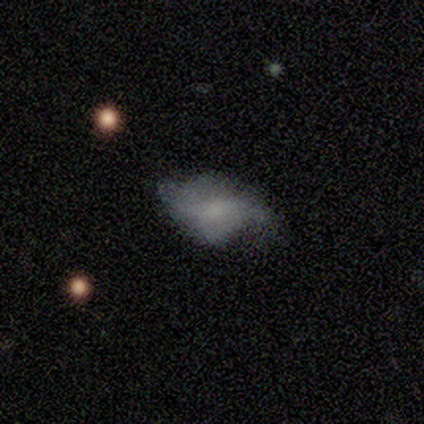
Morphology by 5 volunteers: smooth 40% (tied), featured or disk 40% (tied), star or artifact 20%. Down the decision tree: how rounded — in between (100%); merging — minor disturbance (50%).